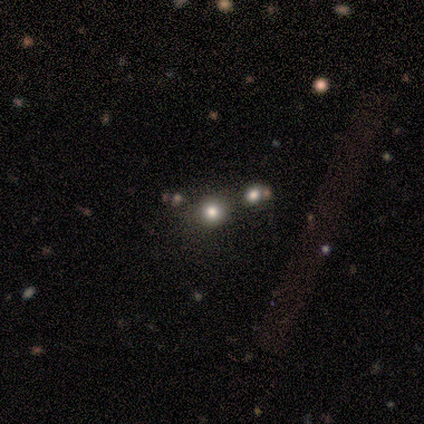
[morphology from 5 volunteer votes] Q: Smooth or featured?
A: star or artifact (80%); runner-up: smooth (20%)